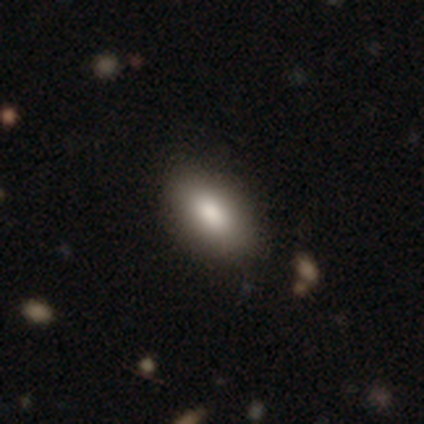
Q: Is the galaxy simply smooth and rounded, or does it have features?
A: smooth — 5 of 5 (100%).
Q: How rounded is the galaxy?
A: in between — 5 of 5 (100%).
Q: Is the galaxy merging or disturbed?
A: none — 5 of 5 (100%).